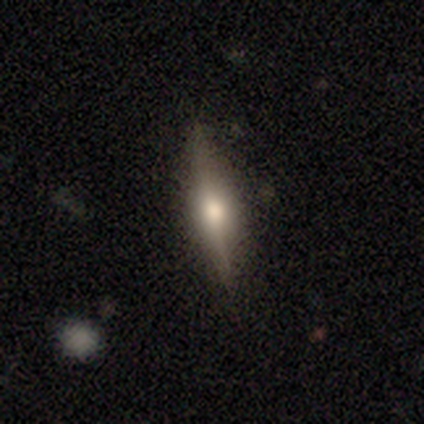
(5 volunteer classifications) Morphology: type=featured or disk (60%); edge-on=yes (100%); edge-on bulge=rounded (67%); merging=none (100%).